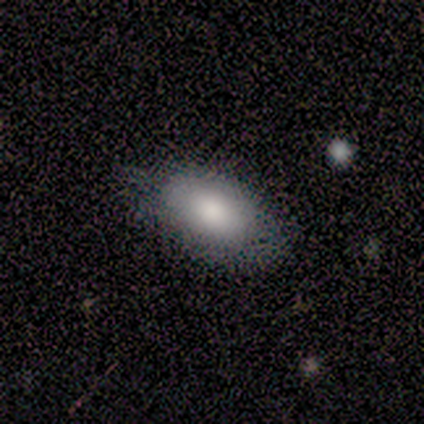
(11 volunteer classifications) A smooth galaxy with no disk features (82%) that is in between round and cigar-shaped (100%).

Vote fractions:
- Smooth or featured? smooth: 82% / featured or disk: 18% / star or artifact: 0%
- How rounded? in between: 100% / round: 0% / cigar-shaped: 0%
- Merging? none: 55% / minor disturbance: 27% / major disturbance: 18% / merger: 0%